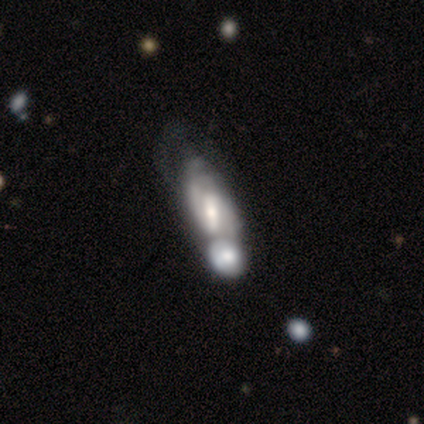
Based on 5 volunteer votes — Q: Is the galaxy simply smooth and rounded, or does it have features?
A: featured or disk — 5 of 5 (100%).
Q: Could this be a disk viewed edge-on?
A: no — 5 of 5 (100%).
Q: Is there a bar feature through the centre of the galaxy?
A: strong — 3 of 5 (60%).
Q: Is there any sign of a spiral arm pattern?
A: yes — 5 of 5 (100%).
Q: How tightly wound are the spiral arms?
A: medium — 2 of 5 (40%, tied with loose).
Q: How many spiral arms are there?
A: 2 — 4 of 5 (80%).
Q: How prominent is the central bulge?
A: small — 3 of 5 (60%).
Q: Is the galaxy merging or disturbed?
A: major disturbance — 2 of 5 (40%, tied with merger).